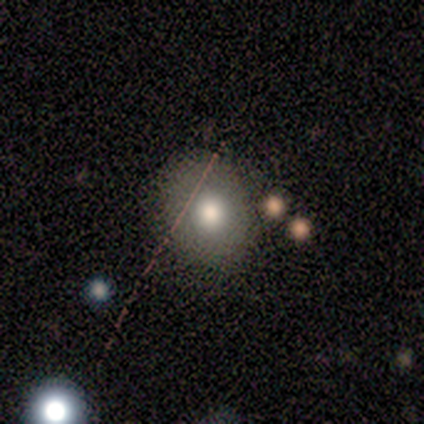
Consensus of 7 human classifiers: This appears to be a smooth galaxy with no disk features (57%) that is round (75%). Merging: none (50%).